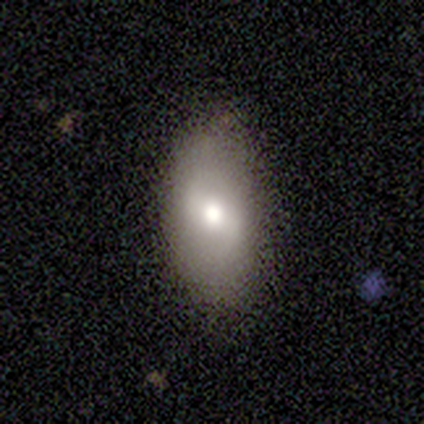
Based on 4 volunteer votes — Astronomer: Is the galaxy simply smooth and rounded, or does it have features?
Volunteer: smooth — 50%.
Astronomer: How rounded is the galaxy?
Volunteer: in between — 100%.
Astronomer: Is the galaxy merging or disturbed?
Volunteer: none — 67%.